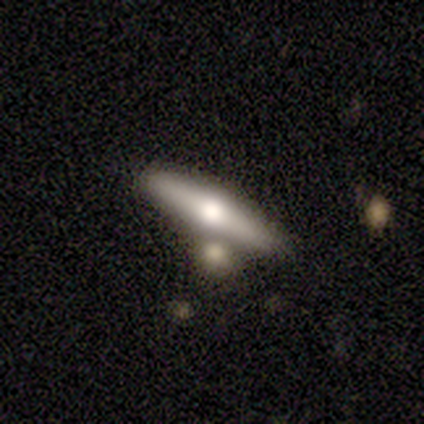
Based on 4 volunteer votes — Smooth or featured: featured or disk — 75% (smooth — 25%)
Edge-on disk: yes — 100%
Edge-on bulge: rounded — 100%
Merging: none — 50% (major disturbance — 25%)